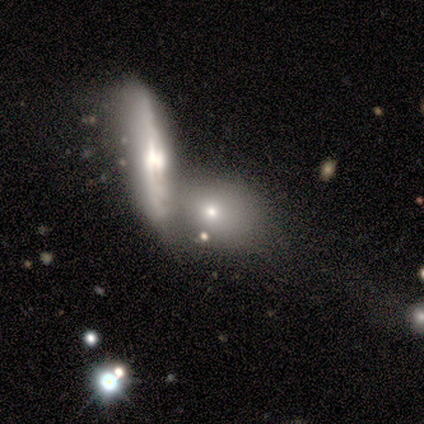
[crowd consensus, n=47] Smooth or featured?
  - smooth: 49% *
  - featured or disk: 38%
  - star or artifact: 13%
How rounded?
  - in between: 52% *
  - round: 30%
  - cigar-shaped: 17%
Merging?
  - merger: 59% *
  - none: 17%
  - minor disturbance: 15%
  - major disturbance: 10%